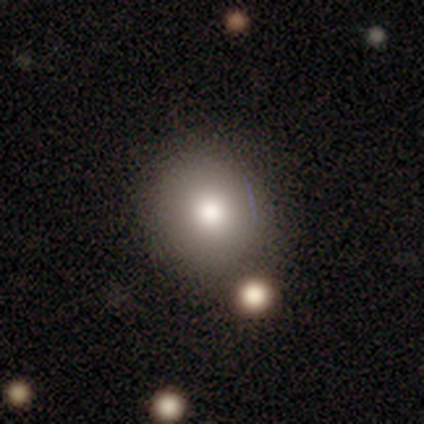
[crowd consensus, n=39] Overall: smooth (85%). How rounded: round (85%). Merging: none (50%; merger 16%).